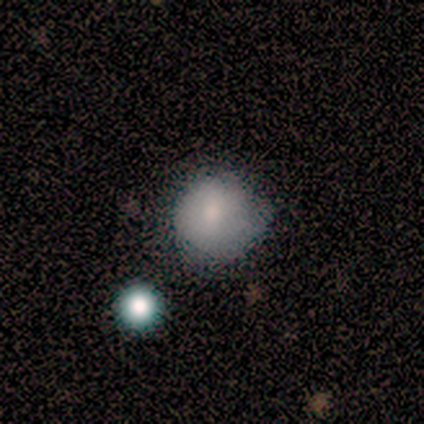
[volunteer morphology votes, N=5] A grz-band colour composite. It shows a smooth galaxy with no disk features (80%) that is round (100%). Merging: none (100%).